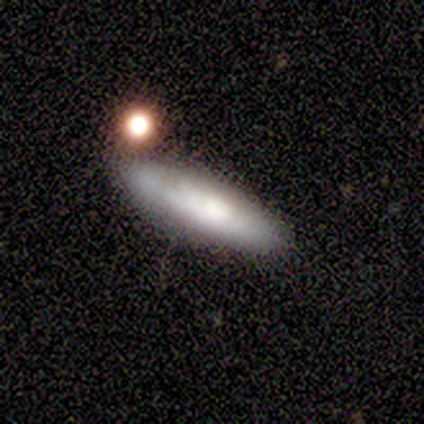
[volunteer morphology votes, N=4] smooth 50% (tied), featured or disk 50% (tied), star or artifact 0%. Down the decision tree: how rounded — in between (50%, tied with cigar-shaped); merging — none (75%).